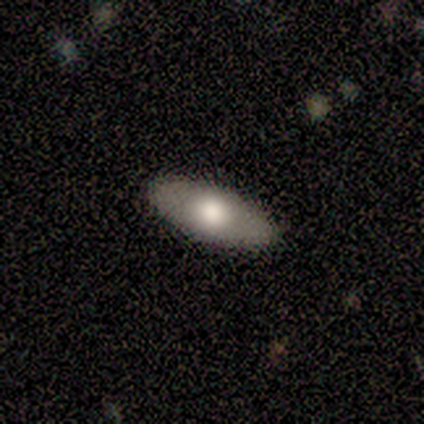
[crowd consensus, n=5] smooth_or_featured: smooth (p=0.80) [alt: featured or disk p=0.20]
how_rounded: in between (p=1.00)
merging: none (p=1.00)